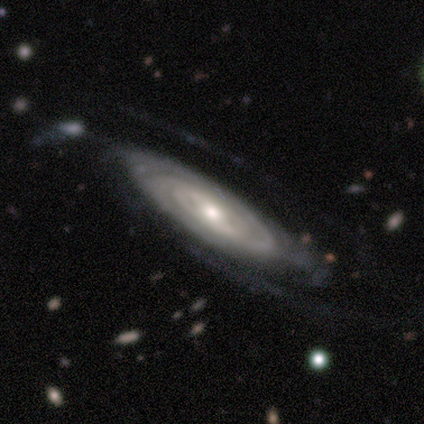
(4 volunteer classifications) featured or disk 100%, smooth 0%, star or artifact 0%. Down the decision tree: edge-on disk — no (75%); bar — no (67%); spiral arms — yes (100%); spiral arm count — can't tell (67%); spiral winding — tight (100%); bulge size — small (100%); merging — none (50%, tied with minor disturbance).